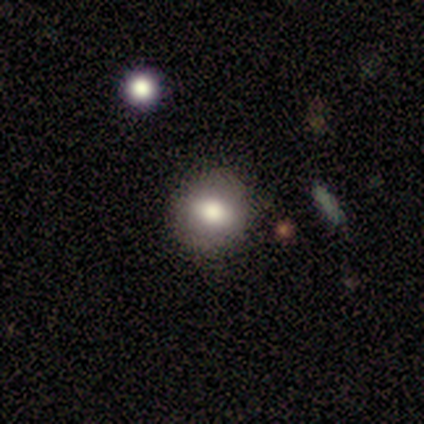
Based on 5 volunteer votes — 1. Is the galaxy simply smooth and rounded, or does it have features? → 100% smooth, 0% featured or disk, 0% star or artifact.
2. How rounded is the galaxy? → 60% round, 40% in between, 0% cigar-shaped.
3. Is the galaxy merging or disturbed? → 80% none, 20% minor disturbance, 0% major disturbance, 0% merger.